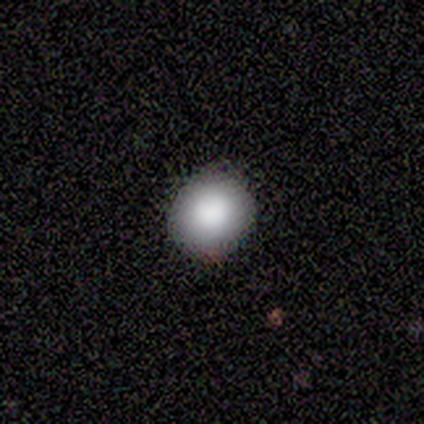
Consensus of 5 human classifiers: Smooth or featured? smooth (100%)
How rounded? round (100%)
Merging? none (100%)